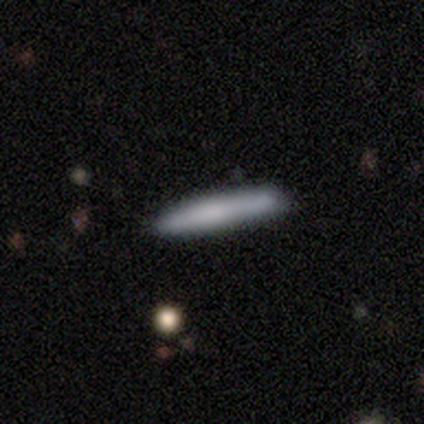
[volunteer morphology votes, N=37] smooth_or_featured: smooth (p=0.73) [alt: featured or disk p=0.22]
how_rounded: cigar-shaped (p=0.96) [alt: in between p=0.04]
merging: none (p=0.86) [alt: minor disturbance p=0.09]